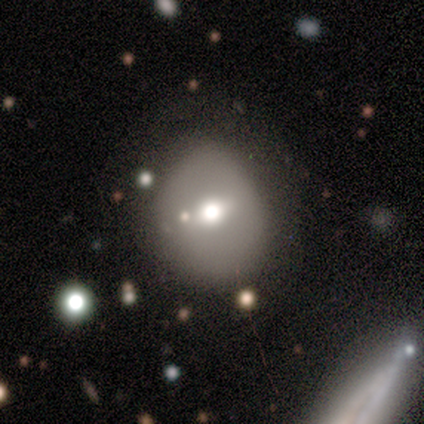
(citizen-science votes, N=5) smooth-or-featured: smooth: 60% | featured or disk: 20% | star or artifact: 20%
  how-rounded: round: 100% | in between: 0% | cigar-shaped: 0%
  merging: minor disturbance: 75% | none: 25% | major disturbance: 0% | merger: 0%